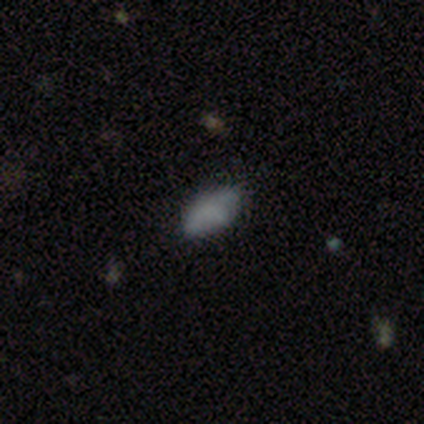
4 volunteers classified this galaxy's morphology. Q: Smooth or featured?
A: smooth (100%)
Q: How rounded?
A: in between (100%)
Q: Merging?
A: none (50%); tied with: major disturbance (50%)